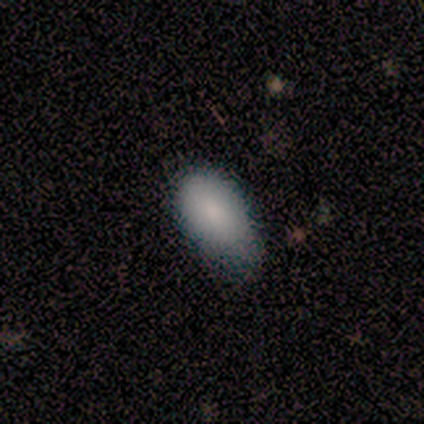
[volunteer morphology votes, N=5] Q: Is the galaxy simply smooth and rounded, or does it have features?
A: smooth — 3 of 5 (60%).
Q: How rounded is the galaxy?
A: in between — 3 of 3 (100%).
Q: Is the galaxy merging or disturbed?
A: none — 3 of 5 (60%).